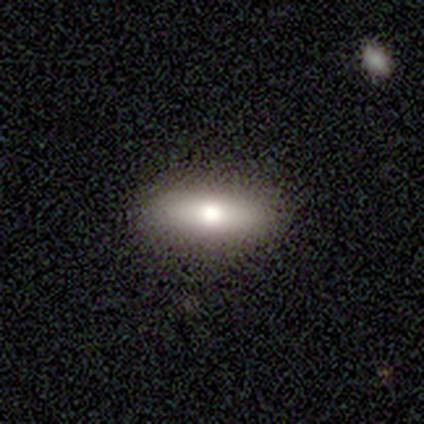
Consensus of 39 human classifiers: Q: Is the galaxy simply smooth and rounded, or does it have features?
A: smooth — 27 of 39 (69%).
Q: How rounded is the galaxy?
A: in between — 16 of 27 (59%).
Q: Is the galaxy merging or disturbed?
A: none — 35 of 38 (92%).